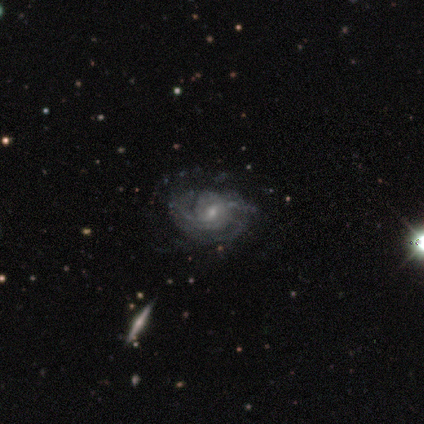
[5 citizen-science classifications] smooth_or_featured: featured or disk (p=0.80) [alt: smooth p=0.20]
disk_edge_on: no (p=1.00)
bar: strong (p=0.50) [alt: weak p=0.25]
has_spiral_arms: yes (p=1.00)
spiral_winding: tight (p=0.50) [tied with: medium p=0.50]
spiral_arm_count: can't tell (p=0.50) [alt: 2 p=0.25]
bulge_size: small (p=0.50) [alt: large p=0.25]
merging: minor disturbance (p=0.80) [alt: none p=0.20]